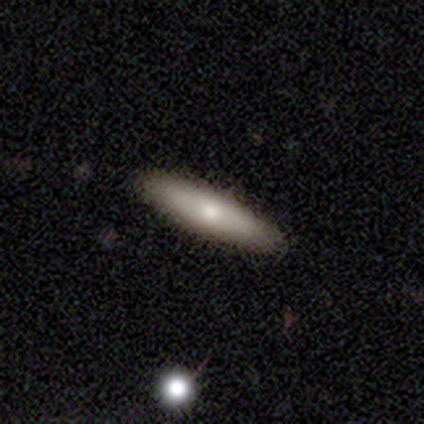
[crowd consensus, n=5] A smooth galaxy with no disk features (60%) that is cigar-shaped (100%).

Vote fractions:
- Smooth or featured? smooth: 60% / featured or disk: 40% / star or artifact: 0%
- How rounded? cigar-shaped: 100% / round: 0% / in between: 0%
- Merging? none: 100% / minor disturbance: 0% / major disturbance: 0% / merger: 0%